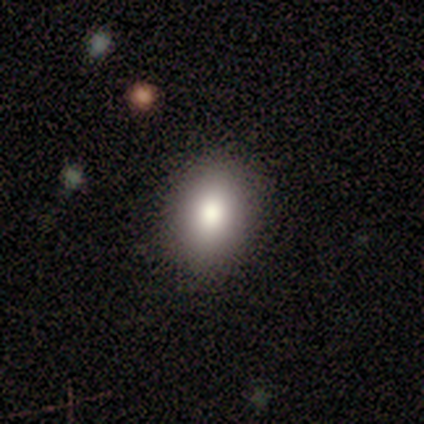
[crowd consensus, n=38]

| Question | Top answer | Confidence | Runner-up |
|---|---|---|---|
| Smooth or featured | smooth | 82% | star or artifact (11%) |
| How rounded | in between | 87% | round (13%) |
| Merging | none | 88% | major disturbance (9%) |